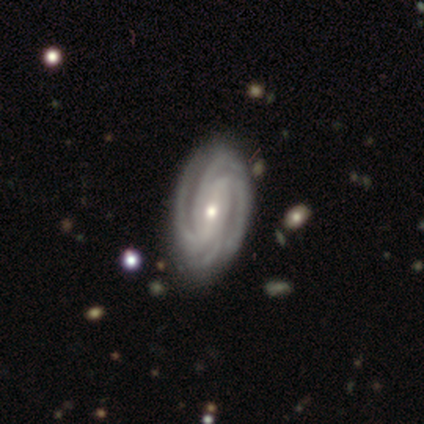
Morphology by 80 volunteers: smooth_or_featured: featured or disk (p=0.97) [alt: smooth p=0.03]
disk_edge_on: no (p=0.97) [alt: yes p=0.03]
bar: strong (p=0.36) [alt: no p=0.33]
has_spiral_arms: yes (p=1.00)
spiral_winding: tight (p=0.83) [alt: medium p=0.17]
spiral_arm_count: 4 (p=0.63) [alt: can't tell p=0.16]
bulge_size: moderate (p=0.47) [alt: small p=0.43]
merging: none (p=0.41) [alt: minor disturbance p=0.07]